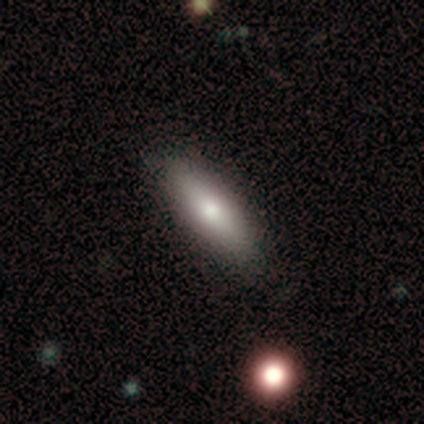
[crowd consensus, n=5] Volunteers were most divided on "how rounded": in between: 67%, cigar-shaped: 33%, round: 0%. More confident: merging — none (100%); smooth or featured — smooth (60%).